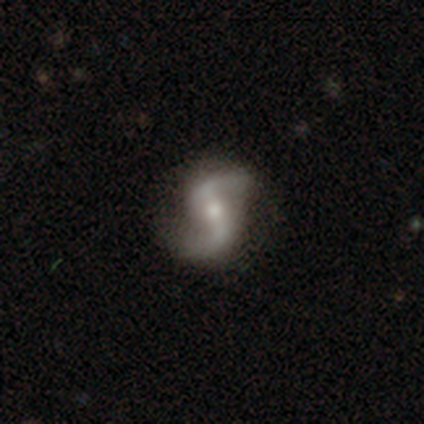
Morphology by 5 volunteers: Volunteers were most divided on "bulge size" (2-way tie): moderate: 50%, small: 50%, dominant: 0%, large: 0%, none: 0%. More confident: edge-on disk — no (100%); spiral arms — yes (100%); spiral winding — loose (100%); spiral arm count — 2 (100%); merging — none (100%); smooth or featured — featured or disk (80%); bar — weak (50%).